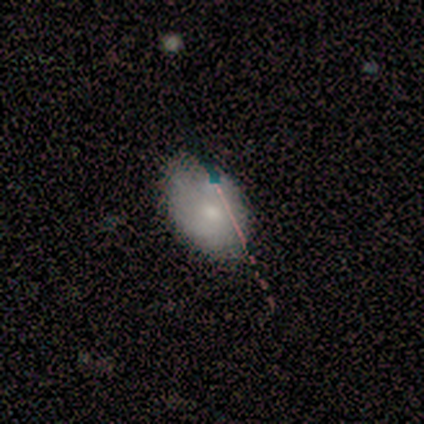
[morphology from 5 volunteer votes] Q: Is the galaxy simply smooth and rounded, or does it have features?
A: featured or disk — 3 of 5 (60%).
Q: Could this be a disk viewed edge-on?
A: no — 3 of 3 (100%).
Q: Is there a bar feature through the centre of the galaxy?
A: no — 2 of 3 (67%).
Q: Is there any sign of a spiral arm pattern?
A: no — 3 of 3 (100%).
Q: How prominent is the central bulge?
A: dominant — 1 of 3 (33%, tied with moderate and small).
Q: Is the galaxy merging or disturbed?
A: minor disturbance — 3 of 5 (60%).